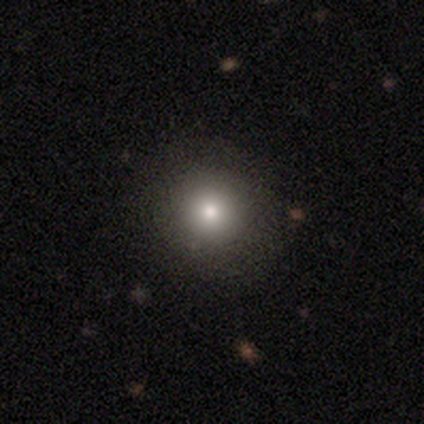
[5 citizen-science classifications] Overall: smooth (80%). How rounded: round (100%). Merging: none (100%).